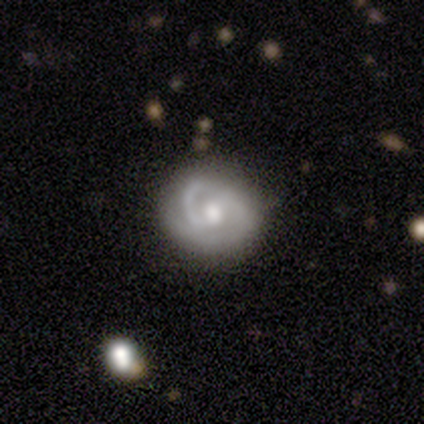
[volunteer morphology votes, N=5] Overall: featured or disk (100%). Edge-on disk: no (100%). Bar: weak (60%; strong 20%). Spiral arms: yes (100%). Spiral arm count: 2 (80%). Spiral winding: tight (60%; medium 40%). Bulge size: moderate (80%). Merging: none (100%).